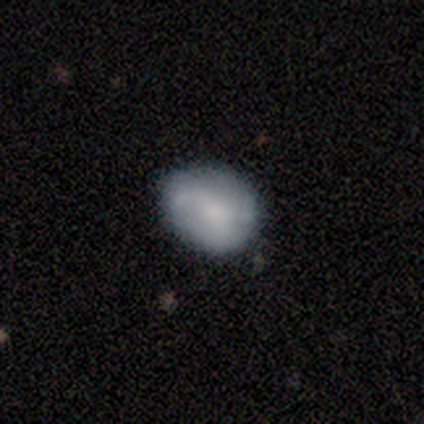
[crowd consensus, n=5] smooth 60%, featured or disk 20%, star or artifact 20%. Down the decision tree: how rounded — in between (100%); merging — none (50%, tied with minor disturbance).